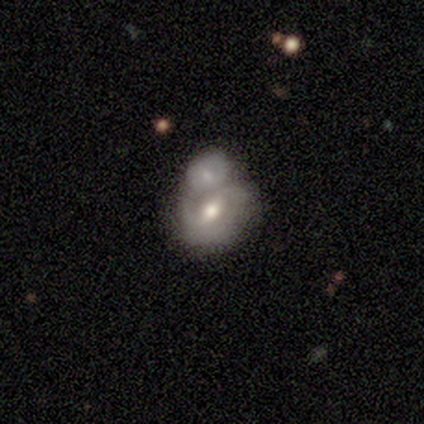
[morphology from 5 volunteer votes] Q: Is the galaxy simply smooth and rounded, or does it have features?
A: smooth — 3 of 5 (60%).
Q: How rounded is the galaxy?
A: in between — 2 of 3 (67%).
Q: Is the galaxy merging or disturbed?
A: merger — 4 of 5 (80%).